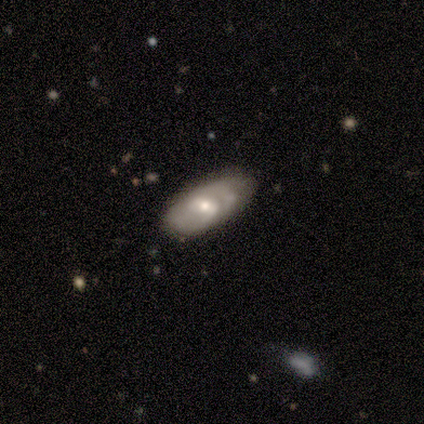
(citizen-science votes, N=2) smooth_or_featured: smooth (p=0.50) [tied with: featured or disk p=0.50]
how_rounded: in between (p=1.00)
merging: none (p=1.00)